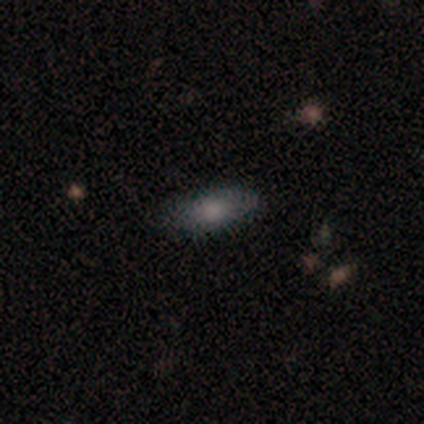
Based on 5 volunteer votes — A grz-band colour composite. It shows a smooth galaxy with no disk features (60%) that is in between round and cigar-shaped (100%). Merging: none (100%).